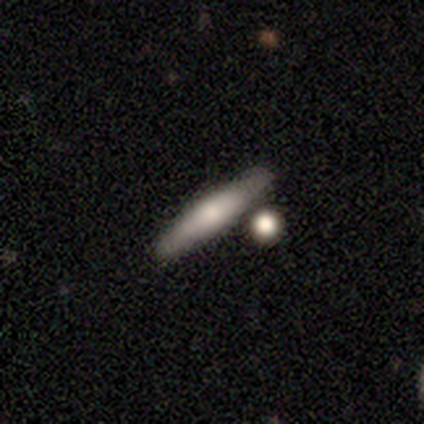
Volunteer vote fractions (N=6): This appears to be a smooth galaxy with no disk features (50%, tied with featured or disk) that is cigar-shaped (100%). Merging: none (83%).